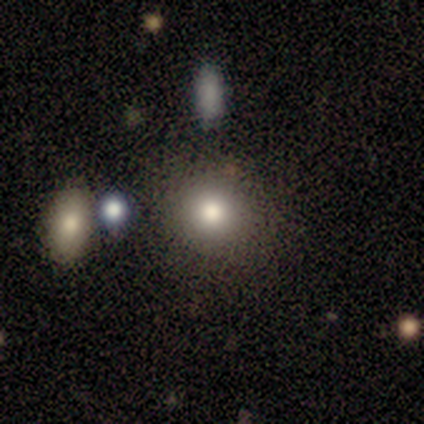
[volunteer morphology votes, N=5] Q: Smooth or featured?
A: smooth (80%); runner-up: star or artifact (20%)
Q: How rounded?
A: round (75%); runner-up: in between (25%)
Q: Merging?
A: none (75%); runner-up: minor disturbance (25%)